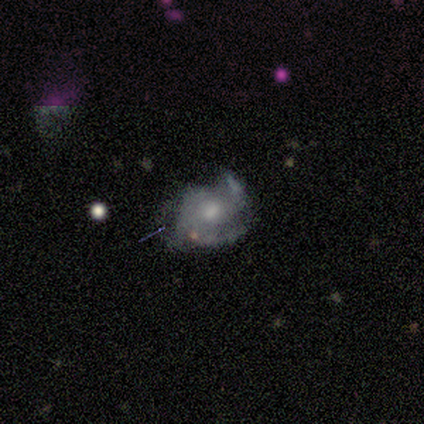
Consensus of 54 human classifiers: Overall: featured or disk (80%). Edge-on disk: no (100%). Bar: no (77%). Spiral arms: yes (84%). Spiral arm count: 3 (39%; 2 36%). Spiral winding: medium (53%; tight 39%). Bulge size: moderate (49%; small 37%). Merging: none (39%; minor disturbance 30%).